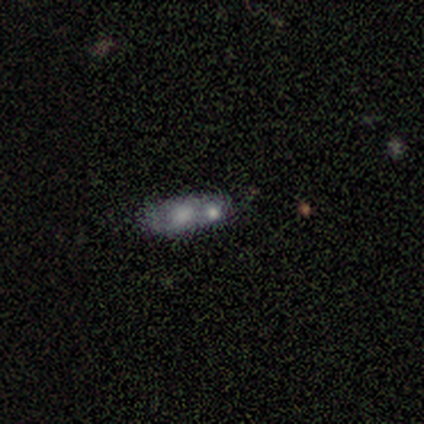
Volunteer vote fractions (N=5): Smooth or featured?
  - smooth: 40% * (tied)
  - featured or disk: 40% * (tied)
  - star or artifact: 20%
How rounded?
  - in between: 100% *
  - round: 0%
  - cigar-shaped: 0%
Merging?
  - none: 50% * (tied)
  - merger: 50% * (tied)
  - minor disturbance: 0%
  - major disturbance: 0%